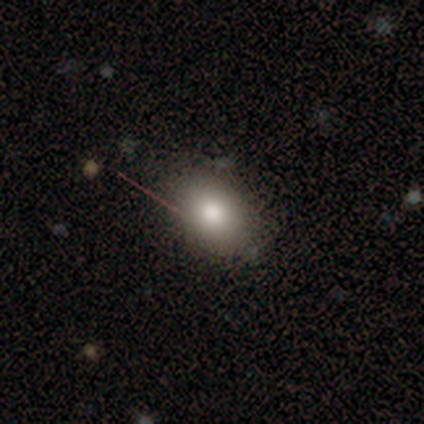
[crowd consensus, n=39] Smooth or featured? smooth (72%)
How rounded? in between (75%)
Merging? none (87%)